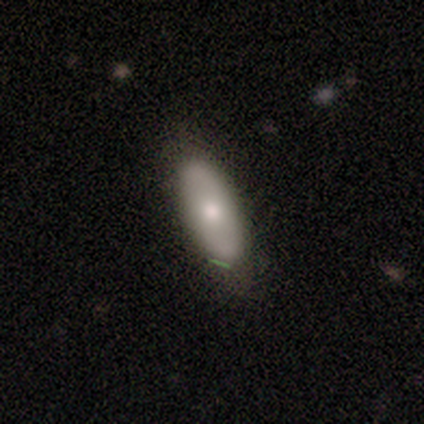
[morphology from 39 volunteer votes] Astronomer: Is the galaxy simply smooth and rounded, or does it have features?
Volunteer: smooth — 62%.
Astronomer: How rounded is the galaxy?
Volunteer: in between — 79%.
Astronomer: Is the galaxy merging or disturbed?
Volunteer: none — 61%.